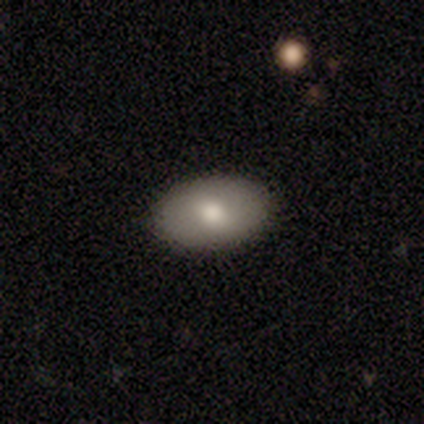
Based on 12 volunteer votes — Smooth or featured? smooth (75%)
How rounded? in between (89%)
Merging? none (90%)